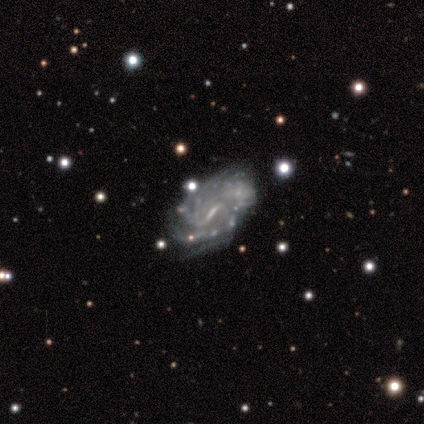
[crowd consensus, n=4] featured or disk 100%, smooth 0%, star or artifact 0%. Down the decision tree: edge-on disk — no (100%); bar — weak (75%); spiral arms — yes (75%); spiral arm count — 2 (33%, tied with 4 and can't tell); spiral winding — medium (67%); bulge size — small (75%); merging — none (50%).